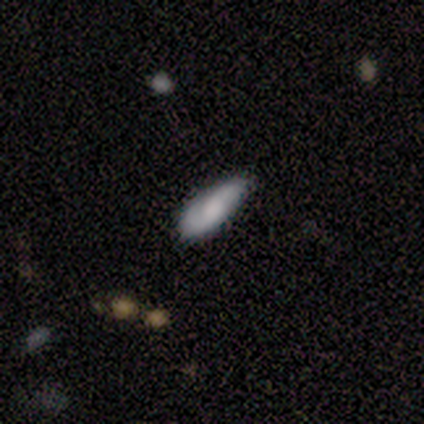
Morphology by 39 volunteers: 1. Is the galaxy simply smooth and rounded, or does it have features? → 62% smooth, 33% featured or disk, 5% star or artifact.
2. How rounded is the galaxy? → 71% in between, 21% cigar-shaped, 8% round.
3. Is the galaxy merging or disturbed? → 65% none, 30% minor disturbance, 5% major disturbance, 0% merger.